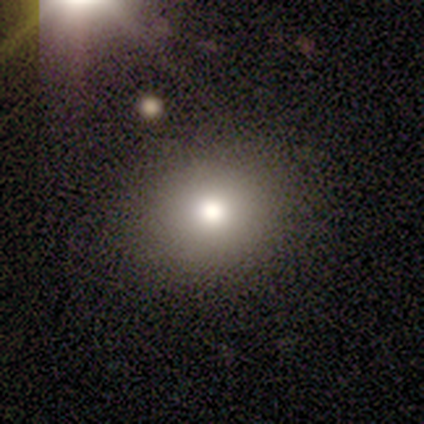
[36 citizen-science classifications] Morphology: type=smooth (69%); roundness=round (72%); merging=none (83%).